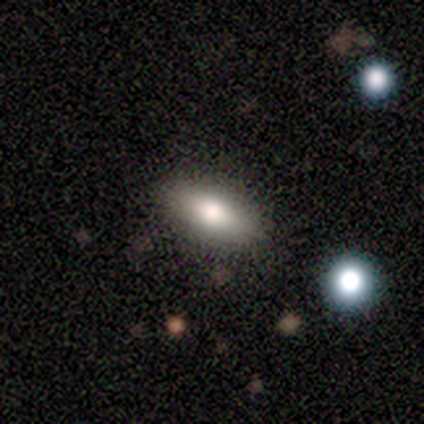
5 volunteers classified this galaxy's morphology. Smooth or featured? 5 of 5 (100%) said smooth. How rounded? 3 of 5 (60%) said cigar-shaped. Merging? 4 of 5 (80%) said none.